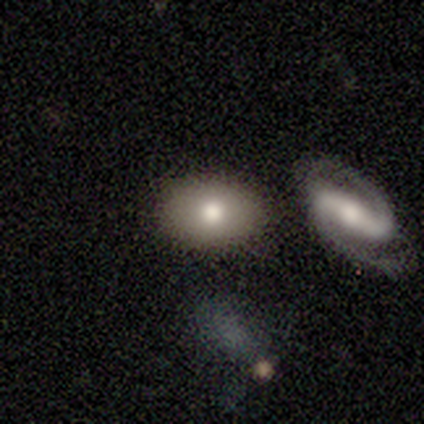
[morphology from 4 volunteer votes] type=smooth (50%, tied with featured or disk); roundness=in between (100%); merging=none (100%).